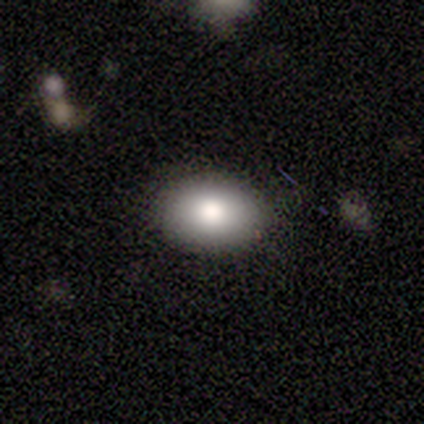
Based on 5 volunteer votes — Smooth or featured? smooth (80%)
How rounded? in between (100%)
Merging? none (100%)